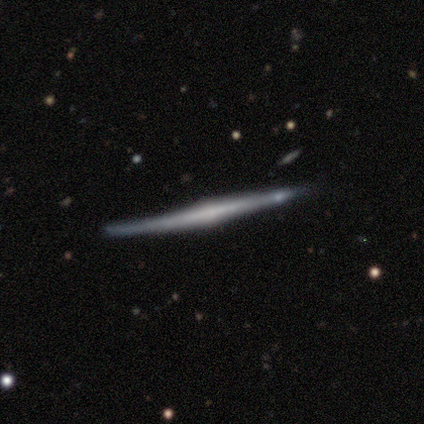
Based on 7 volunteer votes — Overall: featured or disk (100%). Edge-on disk: yes (100%). Edge-on bulge: boxy (43%, tied with rounded). Merging: none (86%).